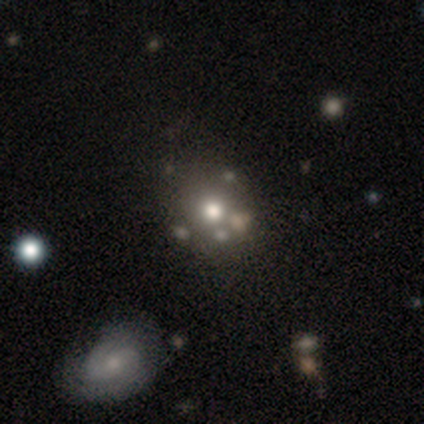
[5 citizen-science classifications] A smooth galaxy with no disk features (60%) that is round (100%).

Vote fractions:
- Smooth or featured? smooth: 60% / featured or disk: 20% / star or artifact: 20%
- How rounded? round: 100% / in between: 0% / cigar-shaped: 0%
- Merging? none: 75% / major disturbance: 25% / minor disturbance: 0% / merger: 0%